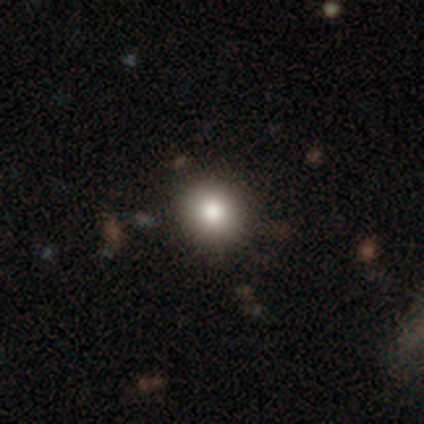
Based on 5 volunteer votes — This appears to be a smooth galaxy with no disk features (100%) that is round (60%). Merging: none (100%).